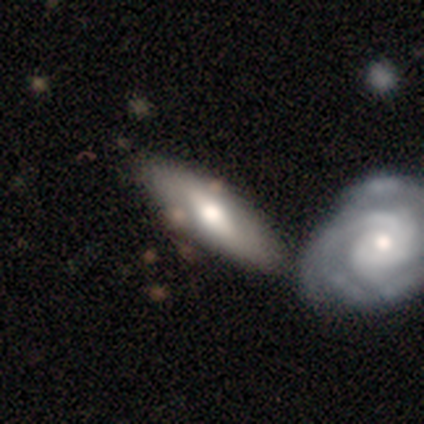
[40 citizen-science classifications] A featured or disk galaxy (52%) with a weak bar (40%), 2 (50%) tight (38%, tied with medium) spiral arms (53%) and a moderate central bulge (67%). Merging: none (46%).